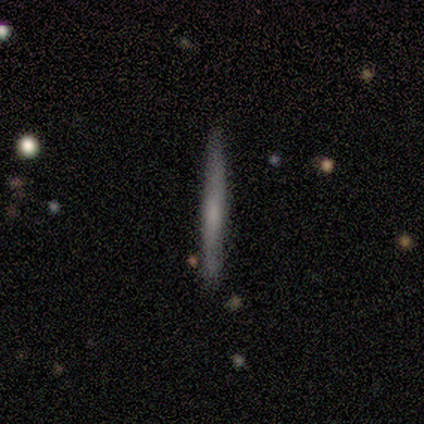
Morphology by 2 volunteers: Smooth or featured? smooth (50%, tied with featured or disk)
How rounded? cigar-shaped (100%)
Merging? none (100%)